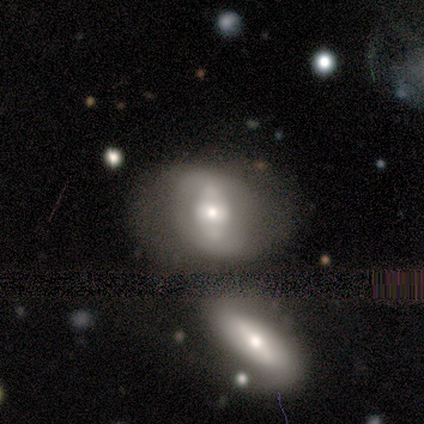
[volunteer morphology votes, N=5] A featured or disk galaxy (60%) with a strong bar (67%), no spiral arms (100%) and a small central bulge (67%). Merging: none (60%).